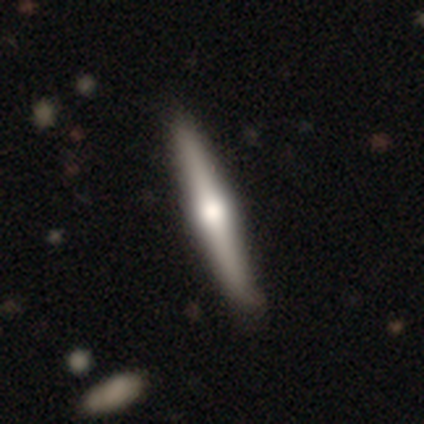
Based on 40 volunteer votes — Smooth or featured?
  - featured or disk: 70% *
  - smooth: 30%
  - star or artifact: 0%
Edge-on disk?
  - yes: 100% *
  - no: 0%
Edge-on bulge?
  - rounded: 93% *
  - boxy: 4%
  - none: 4%
Merging?
  - none: 57% *
  - minor disturbance: 10%
  - major disturbance: 5%
  - merger: 5%